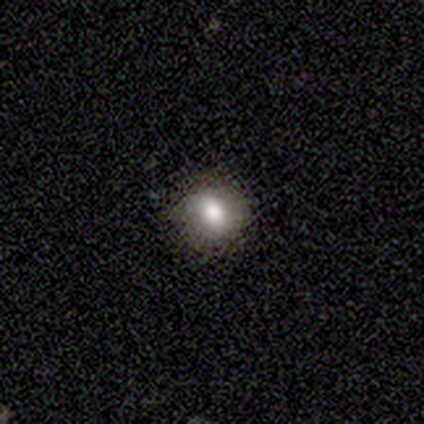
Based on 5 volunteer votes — A smooth galaxy with no disk features (60%) that is round (100%).

Vote fractions:
- Smooth or featured? smooth: 60% / featured or disk: 40% / star or artifact: 0%
- How rounded? round: 100% / in between: 0% / cigar-shaped: 0%
- Merging? none: 80% / minor disturbance: 20% / major disturbance: 0% / merger: 0%